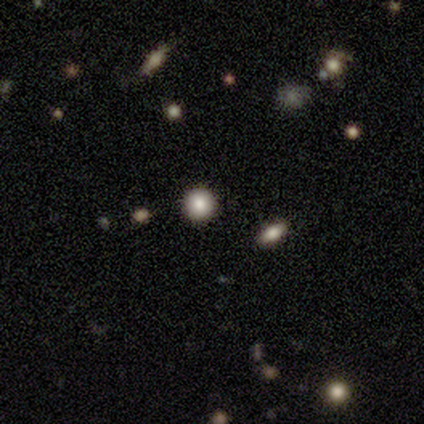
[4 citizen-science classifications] smooth_or_featured: smooth (p=1.00)
how_rounded: round (p=1.00)
merging: none (p=1.00)